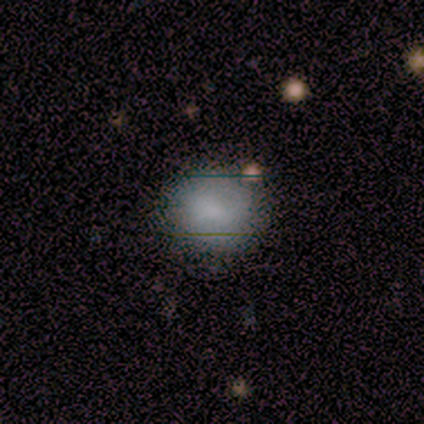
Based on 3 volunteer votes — Morphology: type=smooth (100%); roundness=round (100%); merging=none (100%).